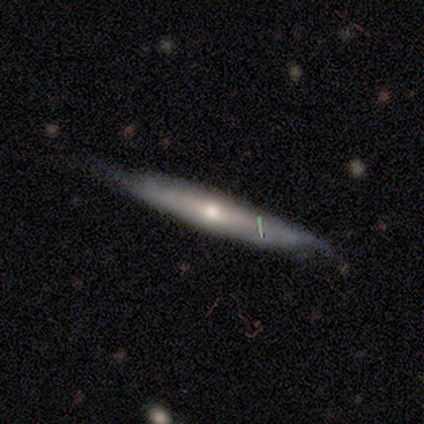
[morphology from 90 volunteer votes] This is likely a featured or disk galaxy (63%). It is clearly viewed edge-on (81%). Edge-on bulge: likely rounded (72%). Merging: likely none (67%).